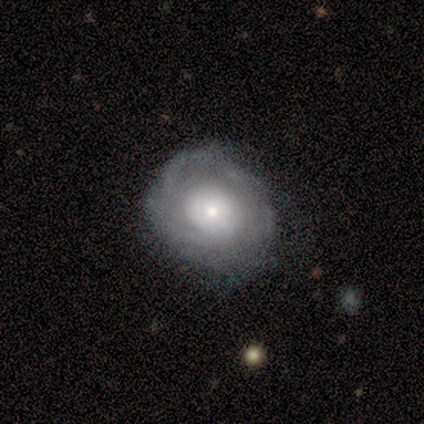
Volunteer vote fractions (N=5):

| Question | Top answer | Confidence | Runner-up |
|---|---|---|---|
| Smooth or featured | featured or disk | 100% | — |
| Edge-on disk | no | 100% | — |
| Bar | no | 100% | — |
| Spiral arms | yes | 80% | no (20%) |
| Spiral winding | loose | 50% | tight (25%) |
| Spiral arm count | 1 | 50% | tied: can't tell (50%) |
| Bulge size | moderate | 60% | small (40%) |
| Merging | none | 80% | minor disturbance (20%) |